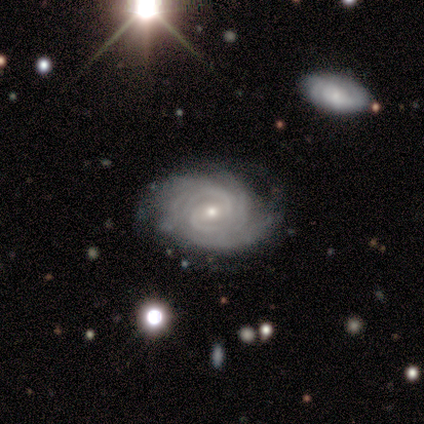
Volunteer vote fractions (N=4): Volunteers were most divided on "merging" (2-way tie): none: 50%, minor disturbance: 50%, major disturbance: 0%, merger: 0%. More confident: smooth or featured — featured or disk (100%); edge-on disk — no (100%); spiral arms — yes (100%); spiral winding — tight (100%); bar — no (75%); spiral arm count — more than 4 (75%); bulge size — small (75%).